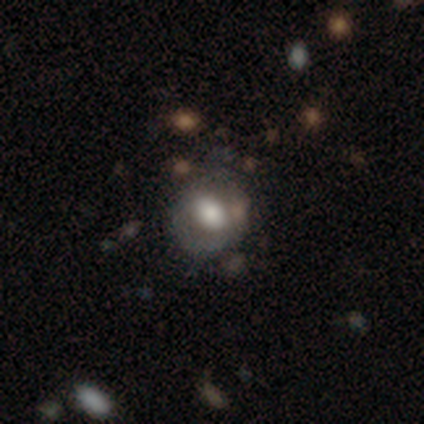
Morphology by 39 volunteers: This appears to be a smooth galaxy with no disk features (51%) that is round (70%). Merging: none (68%).